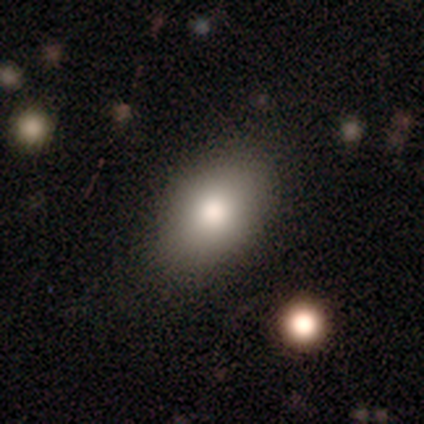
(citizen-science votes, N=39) Volunteers were most divided on "smooth or featured": smooth: 77%, featured or disk: 23%, star or artifact: 0%. More confident: merging — none (92%); how rounded — in between (90%).